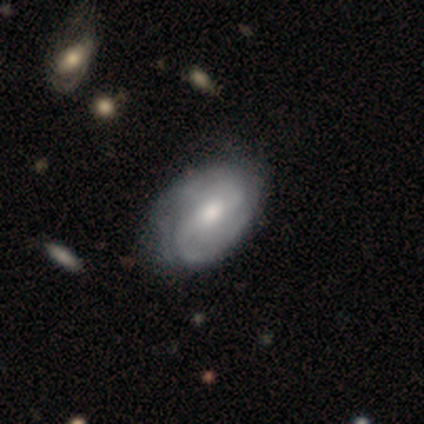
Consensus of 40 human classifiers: smooth-or-featured: featured or disk: 88% | smooth: 12% | star or artifact: 0%
  disk-edge-on: no: 94% | yes: 6%
    bar: weak: 52% | no: 33% | strong: 15%
    has-spiral-arms: yes: 97% | no: 3%
      spiral-winding: medium: 59% | tight: 31% | loose: 9%
      spiral-arm-count: 2: 72% | can't tell: 22% | 1: 3% | 3: 3% | 4: 0% | more than 4: 0%
    bulge-size: moderate: 79% | large: 12% | none: 6% | small: 3% | dominant: 0%
  merging: none: 65% | minor disturbance: 18% | major disturbance: 0% | merger: 0%